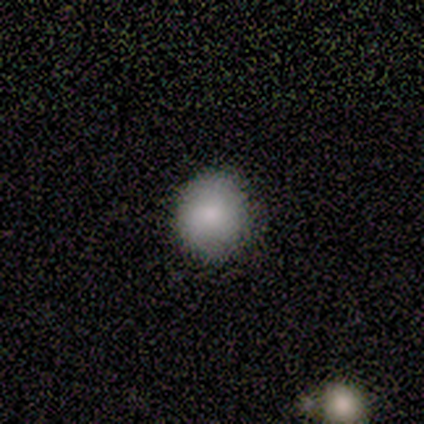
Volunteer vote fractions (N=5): A smooth galaxy with no disk features (100%) that is round (100%).

Vote fractions:
- Smooth or featured? smooth: 100% / featured or disk: 0% / star or artifact: 0%
- How rounded? round: 100% / in between: 0% / cigar-shaped: 0%
- Merging? none: 100% / minor disturbance: 0% / major disturbance: 0% / merger: 0%